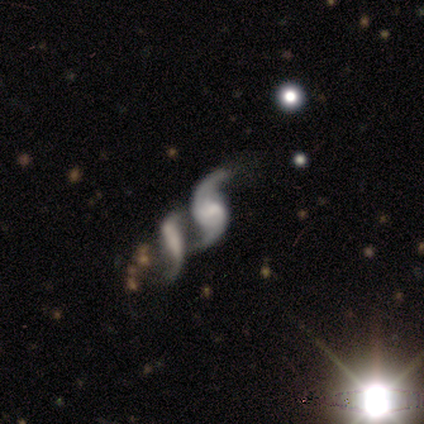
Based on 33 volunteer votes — Overall: featured or disk (85%). Edge-on disk: no (100%). Bar: weak (43%, tied with no). Spiral arms: yes (93%). Spiral arm count: 2 (92%). Spiral winding: loose (73%). Bulge size: moderate (36%; none 25%). Merging: merger (40%; none 33%).